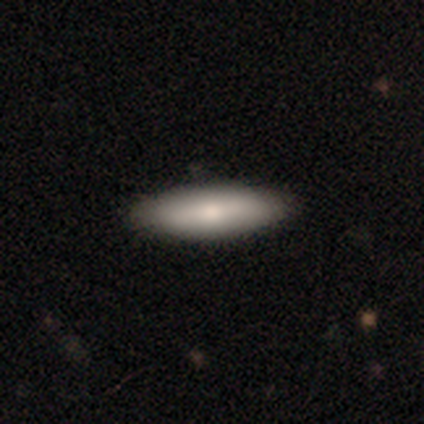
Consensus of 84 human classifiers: Smooth or featured? smooth (71%)
How rounded? cigar-shaped (55%)
Merging? none (89%)